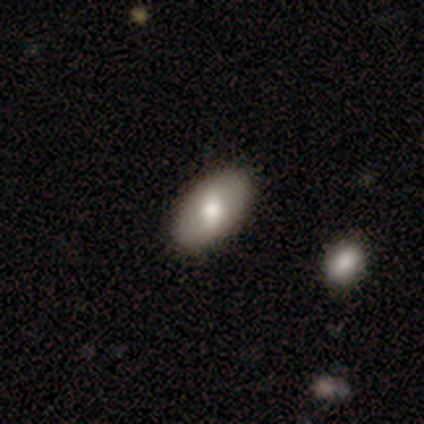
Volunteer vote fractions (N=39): A smooth galaxy with no disk features (67%) that is in between round and cigar-shaped (100%).

Vote fractions:
- Smooth or featured? smooth: 67% / featured or disk: 31% / star or artifact: 3%
- How rounded? in between: 100% / round: 0% / cigar-shaped: 0%
- Merging? none: 63% / merger: 5% / minor disturbance: 3% / major disturbance: 0%